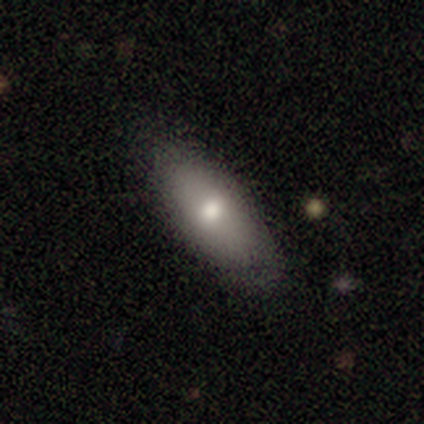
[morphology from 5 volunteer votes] smooth 80%, featured or disk 20%, star or artifact 0%. Down the decision tree: how rounded — in between (50%); merging — none (80%).